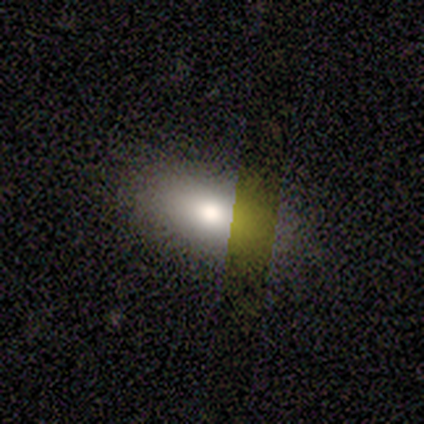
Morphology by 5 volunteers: A smooth galaxy with no disk features (100%) that is in between round and cigar-shaped (100%).

Vote fractions:
- Smooth or featured? smooth: 100% / featured or disk: 0% / star or artifact: 0%
- How rounded? in between: 100% / round: 0% / cigar-shaped: 0%
- Merging? none: 100% / minor disturbance: 0% / major disturbance: 0% / merger: 0%